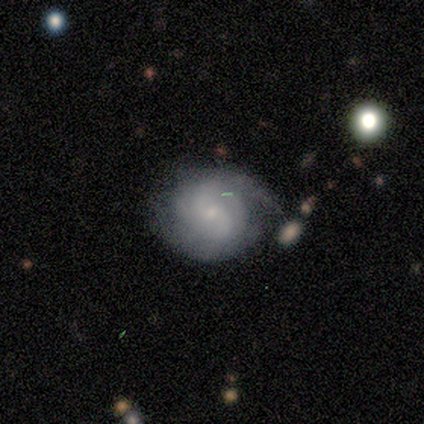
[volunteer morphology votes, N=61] Volunteers were most divided on "spiral winding": tight: 50%, medium: 40%, loose: 10%. Remaining: edge-on disk — no (100%); spiral arms — yes (95%); smooth or featured — featured or disk (72%); bar — no (70%); merging — none (65%); bulge size — small (59%); spiral arm count — 2 (43%).